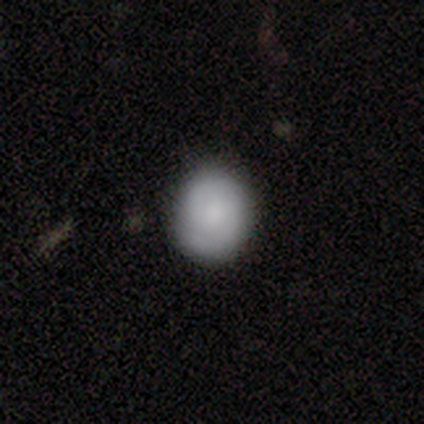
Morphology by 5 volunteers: Smooth or featured?
  - featured or disk: 60% *
  - smooth: 40%
  - star or artifact: 0%
Edge-on disk?
  - no: 100% *
  - yes: 0%
Bar?
  - weak: 67% *
  - no: 33%
  - strong: 0%
Spiral arms?
  - yes: 100% *
  - no: 0%
Spiral winding?
  - tight: 67% *
  - medium: 33%
  - loose: 0%
Spiral arm count?
  - 2: 100% *
  - 1: 0%
  - 3: 0%
  - 4: 0%
  - more than 4: 0%
  - can't tell: 0%
Bulge size?
  - moderate: 67% *
  - none: 33%
  - dominant: 0%
  - large: 0%
  - small: 0%
Merging?
  - none: 80% *
  - minor disturbance: 20%
  - major disturbance: 0%
  - merger: 0%